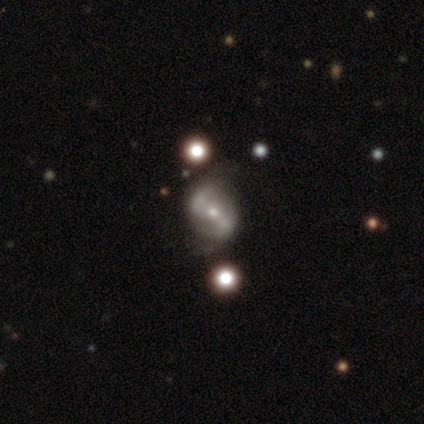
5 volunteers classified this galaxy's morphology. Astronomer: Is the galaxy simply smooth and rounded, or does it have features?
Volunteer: featured or disk — 100%.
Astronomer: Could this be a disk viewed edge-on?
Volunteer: no — 100%.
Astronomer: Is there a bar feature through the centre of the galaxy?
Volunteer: strong — 40%, tied with no at 40%.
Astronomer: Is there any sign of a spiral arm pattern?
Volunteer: yes — 80%.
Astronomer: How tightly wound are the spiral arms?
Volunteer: medium — 50%, tied with loose at 50%.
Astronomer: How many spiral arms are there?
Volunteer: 2 — 100%.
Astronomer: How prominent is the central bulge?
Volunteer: moderate — 60% (runner-up: small, 40%).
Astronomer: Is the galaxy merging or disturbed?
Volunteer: none — 60%.